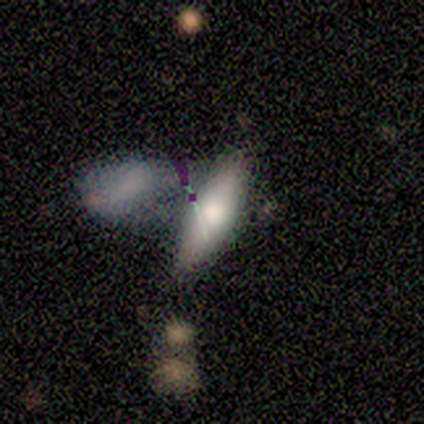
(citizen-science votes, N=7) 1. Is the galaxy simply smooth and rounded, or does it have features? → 43% smooth (tied), 43% featured or disk (tied), 14% star or artifact.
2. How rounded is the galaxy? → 100% in between, 0% round, 0% cigar-shaped.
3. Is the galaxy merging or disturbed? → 83% merger, 17% minor disturbance, 0% none, 0% major disturbance.